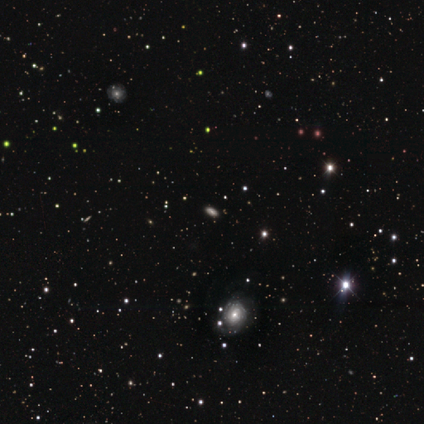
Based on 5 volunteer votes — star or artifact 60%, smooth 20%, featured or disk 20%.